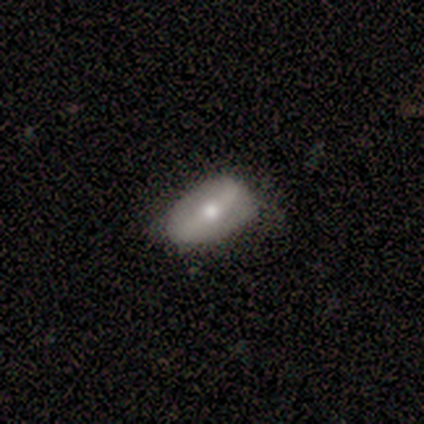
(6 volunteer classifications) smooth_or_featured: featured or disk (p=0.83) [alt: smooth p=0.17]
disk_edge_on: no (p=1.00)
bar: strong (p=0.40) [tied with: weak p=0.40]
has_spiral_arms: no (p=0.60) [alt: yes p=0.40]
bulge_size: moderate (p=0.80) [alt: small p=0.20]
merging: none (p=0.67) [alt: minor disturbance p=0.33]